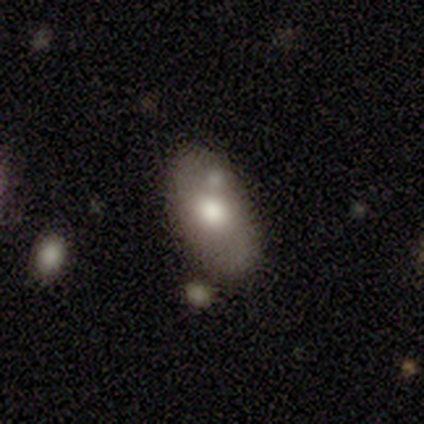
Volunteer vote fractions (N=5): smooth-or-featured: smooth: 80% | featured or disk: 20% | star or artifact: 0%
  how-rounded: in between: 100% | round: 0% | cigar-shaped: 0%
  merging: none: 80% | minor disturbance: 20% | major disturbance: 0% | merger: 0%